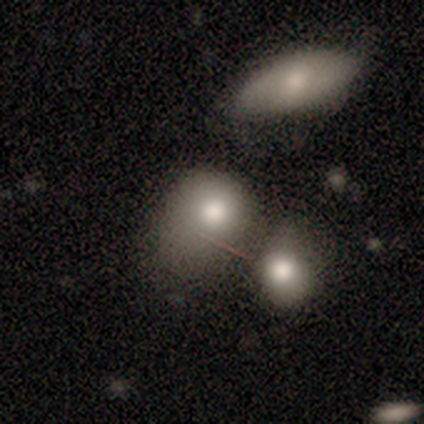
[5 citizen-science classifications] This appears to be a smooth galaxy with no disk features (80%) that is round (50%, tied with in between). Merging: merger (50%).